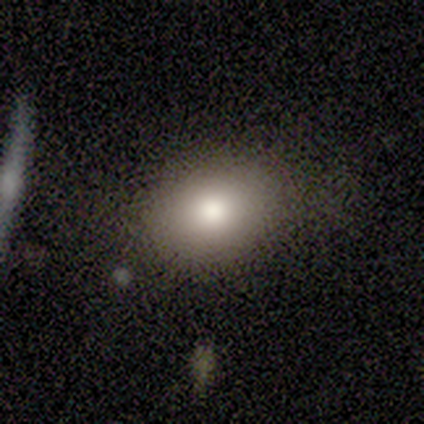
A smooth galaxy with no disk features (80%) that is round (75%).

Vote fractions:
- Smooth or featured? smooth: 80% / featured or disk: 20% / star or artifact: 0%
- How rounded? round: 75% / in between: 25% / cigar-shaped: 0%
- Merging? none: 80% / minor disturbance: 20% / major disturbance: 0% / merger: 0%